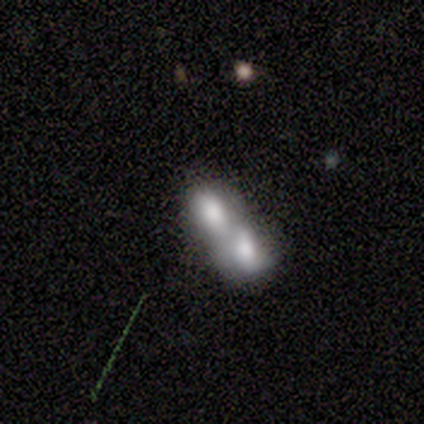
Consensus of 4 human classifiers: smooth-or-featured: smooth: 100% | featured or disk: 0% | star or artifact: 0%
  how-rounded: in between: 75% | round: 25% | cigar-shaped: 0%
  merging: merger: 100% | none: 0% | minor disturbance: 0% | major disturbance: 0%